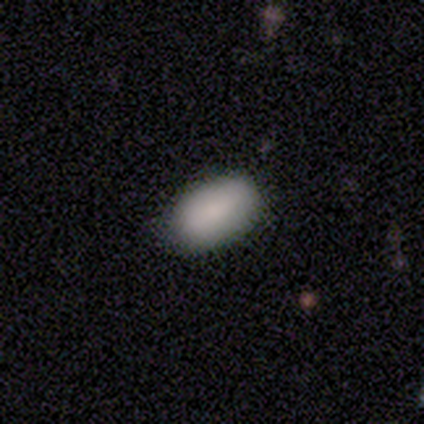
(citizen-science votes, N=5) Overall: smooth (100%). How rounded: in between (100%). Merging: none (100%).